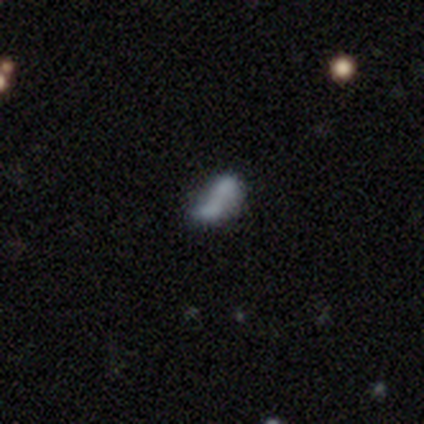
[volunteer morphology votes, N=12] This appears to be a smooth galaxy with no disk features (67%) that is in between round and cigar-shaped (88%). Merging: merger (55%).